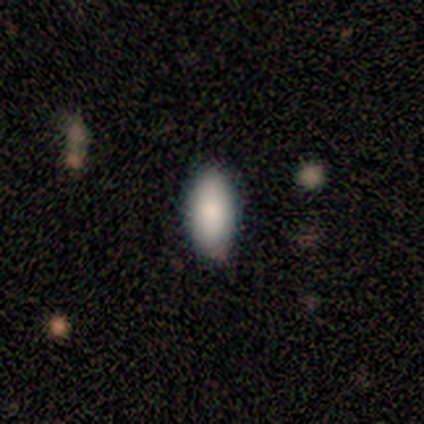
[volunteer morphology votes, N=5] smooth-or-featured: smooth: 80% | star or artifact: 20% | featured or disk: 0%
  how-rounded: in between: 100% | round: 0% | cigar-shaped: 0%
  merging: none: 100% | minor disturbance: 0% | major disturbance: 0% | merger: 0%